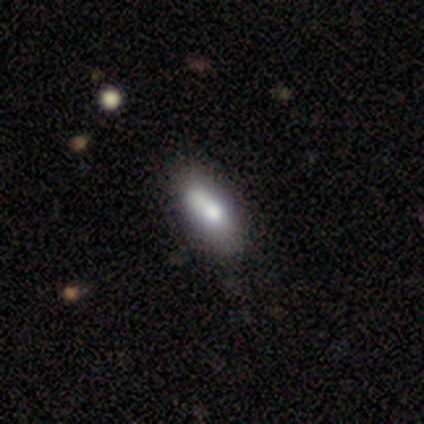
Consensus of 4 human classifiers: Smooth or featured? smooth (75%)
How rounded? in between (100%)
Merging? none (75%)